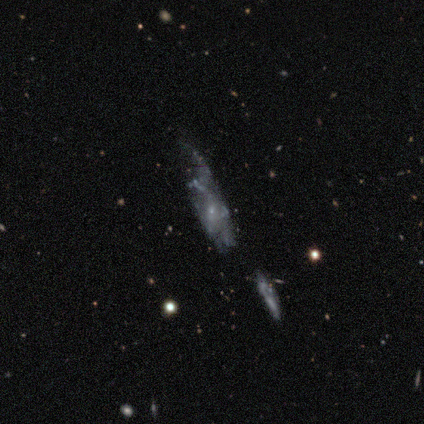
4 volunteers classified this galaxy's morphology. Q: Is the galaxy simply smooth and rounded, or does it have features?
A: smooth — 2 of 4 (50%, tied with featured or disk).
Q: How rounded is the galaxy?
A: in between — 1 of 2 (50%, tied with cigar-shaped).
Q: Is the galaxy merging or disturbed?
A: minor disturbance — 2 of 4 (50%).